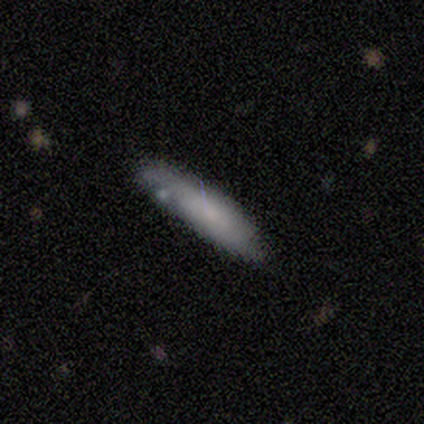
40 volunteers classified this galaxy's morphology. Smooth or featured?
  - smooth: 70% *
  - featured or disk: 25%
  - star or artifact: 5%
How rounded?
  - cigar-shaped: 86% *
  - in between: 14%
  - round: 0%
Merging?
  - none: 66% *
  - minor disturbance: 26%
  - major disturbance: 5%
  - merger: 3%